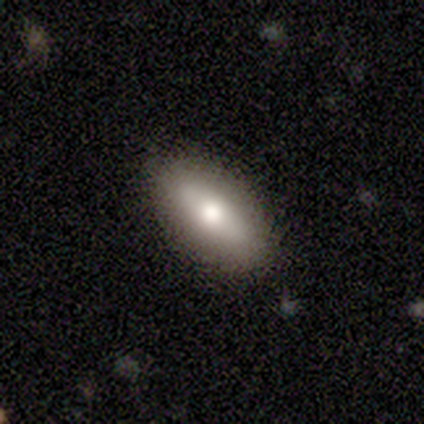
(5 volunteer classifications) Smooth or featured? smooth (80%)
How rounded? in between (100%)
Merging? none (60%)